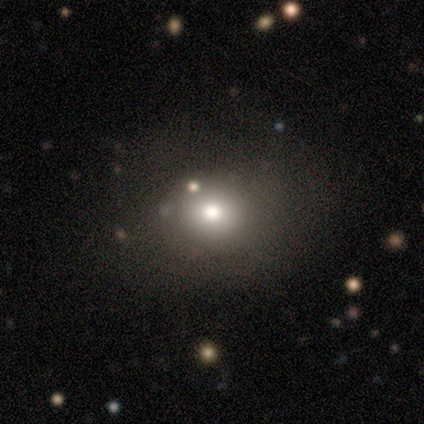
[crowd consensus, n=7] This appears to be a smooth galaxy with no disk features (86%) that is round (83%). Merging: none (83%).